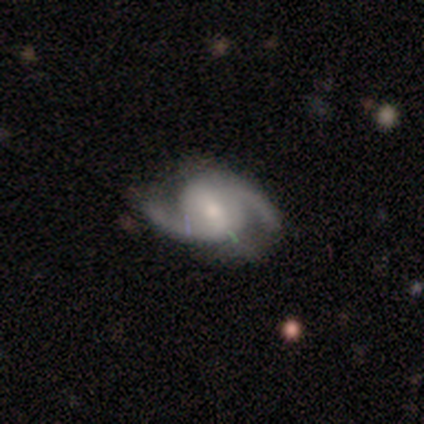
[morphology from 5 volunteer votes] A featured or disk galaxy (100%) with no bar (80%), 2 (100%) loose (100%) spiral arms (100%) and a moderate central bulge (40%, tied with small).

Vote fractions:
- Smooth or featured? featured or disk: 100% / smooth: 0% / star or artifact: 0%
- Edge-on disk? no: 100% / yes: 0%
- Bar? no: 80% / weak: 20% / strong: 0%
- Spiral arms? yes: 100% / no: 0%
- Spiral winding? loose: 100% / tight: 0% / medium: 0%
- Spiral arm count? 2: 100% / 1: 0% / 3: 0% / 4: 0% / more than 4: 0% / can't tell: 0%
- Bulge size? moderate: 40% (tied) / small: 40% (tied) / none: 20% / dominant: 0% / large: 0%
- Merging? none: 80% / minor disturbance: 20% / major disturbance: 0% / merger: 0%